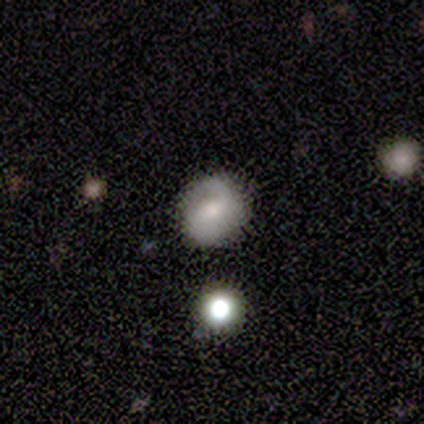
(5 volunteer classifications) A featured or disk galaxy (60%) with no bar (67%), 1 (67%) medium (67%) spiral arms (100%) and a moderate central bulge (67%).

Vote fractions:
- Smooth or featured? featured or disk: 60% / star or artifact: 40% / smooth: 0%
- Edge-on disk? no: 100% / yes: 0%
- Bar? no: 67% / weak: 33% / strong: 0%
- Spiral arms? yes: 100% / no: 0%
- Spiral winding? medium: 67% / loose: 33% / tight: 0%
- Spiral arm count? 1: 67% / can't tell: 33% / 2: 0% / 3: 0% / 4: 0% / more than 4: 0%
- Bulge size? moderate: 67% / small: 33% / dominant: 0% / large: 0% / none: 0%
- Merging? none: 100% / minor disturbance: 0% / major disturbance: 0% / merger: 0%